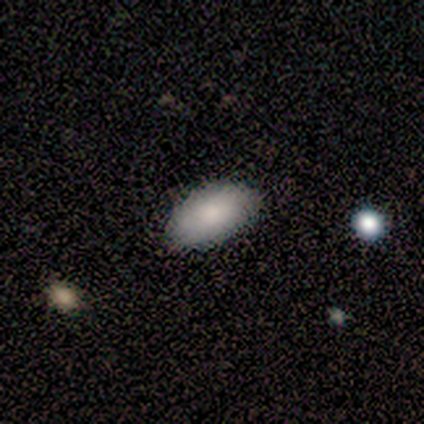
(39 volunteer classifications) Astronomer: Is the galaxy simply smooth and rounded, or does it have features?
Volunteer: smooth — 87%.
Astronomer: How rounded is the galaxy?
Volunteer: in between — 94%.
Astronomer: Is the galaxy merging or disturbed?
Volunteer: none — 73%.